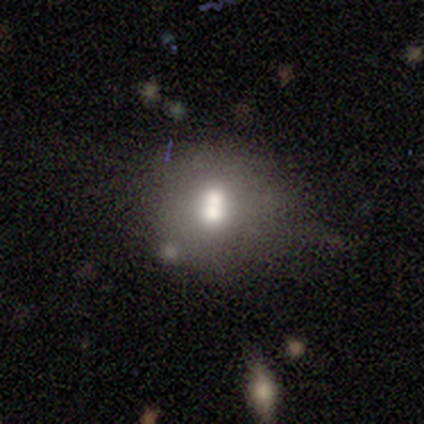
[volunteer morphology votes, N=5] This is likely a smooth galaxy (60%). How rounded: clearly round (100%). Merging: possibly none (50%).